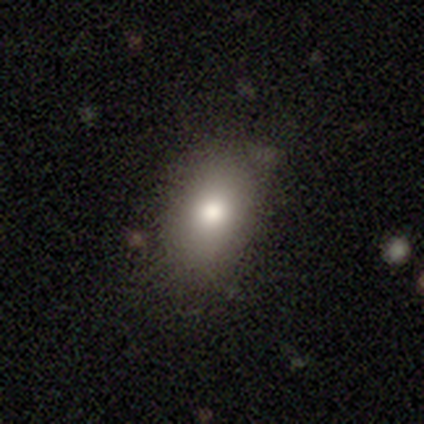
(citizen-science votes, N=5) A smooth galaxy with no disk features (60%) that is in between round and cigar-shaped (67%).

Vote fractions:
- Smooth or featured? smooth: 60% / featured or disk: 20% / star or artifact: 20%
- How rounded? in between: 67% / round: 33% / cigar-shaped: 0%
- Merging? none: 100% / minor disturbance: 0% / major disturbance: 0% / merger: 0%